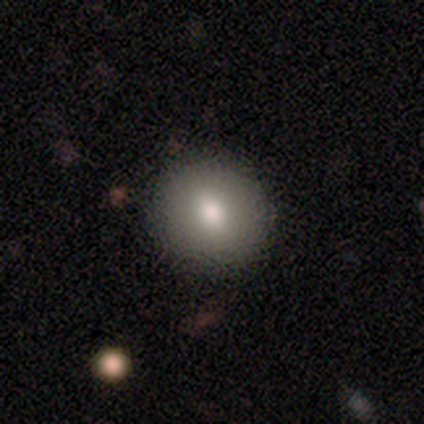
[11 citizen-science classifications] Q: Smooth or featured?
A: smooth (82%); runner-up: featured or disk (18%)
Q: How rounded?
A: round (89%); runner-up: in between (11%)
Q: Merging?
A: none (82%); runner-up: minor disturbance (18%)